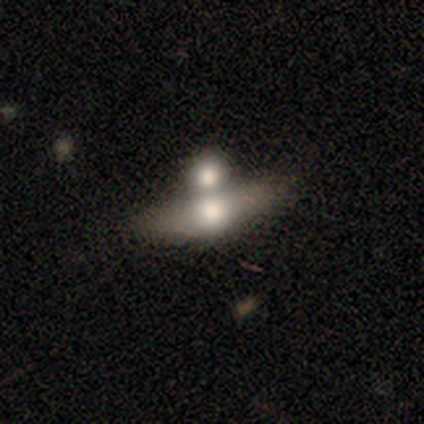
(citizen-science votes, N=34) Q: Smooth or featured?
A: smooth (62%); runner-up: featured or disk (35%)
Q: How rounded?
A: in between (62%); runner-up: cigar-shaped (29%)
Q: Merging?
A: merger (67%)